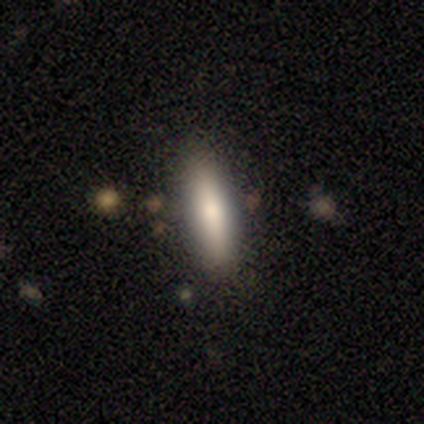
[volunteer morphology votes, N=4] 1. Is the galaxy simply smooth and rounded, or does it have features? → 100% smooth, 0% featured or disk, 0% star or artifact.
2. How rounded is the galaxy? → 50% in between (tied), 50% cigar-shaped (tied), 0% round.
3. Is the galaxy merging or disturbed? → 50% none, 25% minor disturbance, 25% major disturbance, 0% merger.